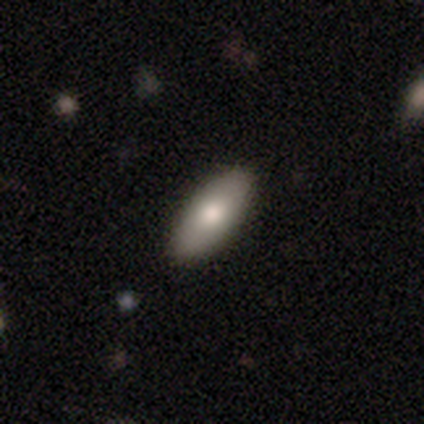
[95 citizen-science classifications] A smooth galaxy with no disk features (73%) that is in between round and cigar-shaped (90%). Merging: none (95%).